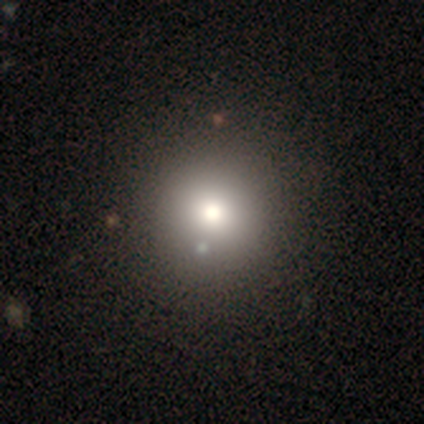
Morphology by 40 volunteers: Volunteers were most divided on "merging": none: 82%, minor disturbance: 3%, major disturbance: 0%, merger: 0%. More confident: how rounded — round (97%); smooth or featured — smooth (90%).